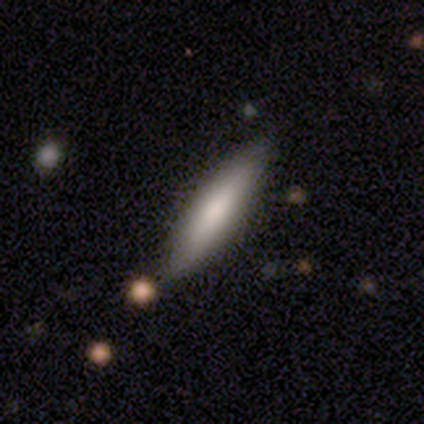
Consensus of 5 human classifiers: This appears to be a smooth galaxy with no disk features (100%) that is cigar-shaped (100%). Merging: none (80%).